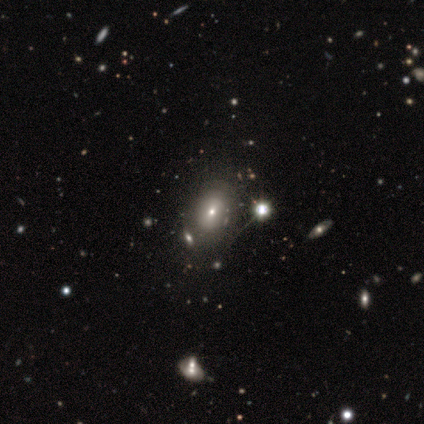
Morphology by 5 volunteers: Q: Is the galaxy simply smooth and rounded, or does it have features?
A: smooth — 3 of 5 (60%).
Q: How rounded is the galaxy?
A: in between — 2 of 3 (67%).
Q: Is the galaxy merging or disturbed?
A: minor disturbance — 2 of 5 (40%).